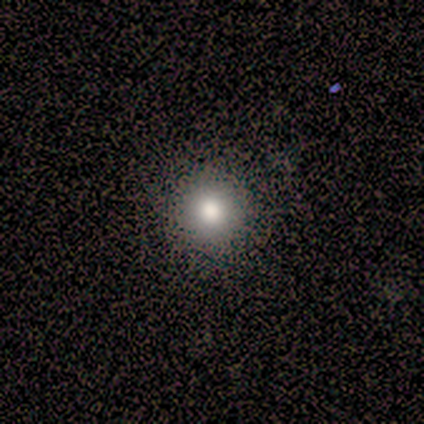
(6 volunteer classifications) smooth-or-featured: smooth: 100% | featured or disk: 0% | star or artifact: 0%
  how-rounded: round: 83% | in between: 17% | cigar-shaped: 0%
  merging: none: 100% | minor disturbance: 0% | major disturbance: 0% | merger: 0%